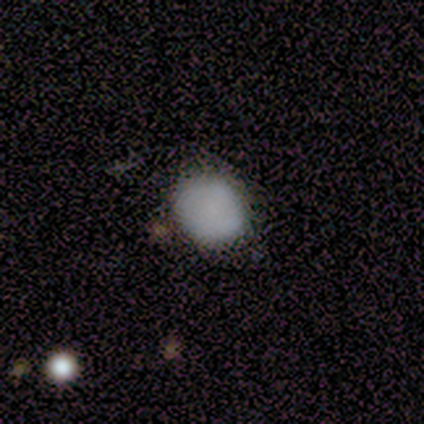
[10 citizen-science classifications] Smooth or featured?
  - smooth: 80% *
  - featured or disk: 20%
  - star or artifact: 0%
How rounded?
  - round: 100% *
  - in between: 0%
  - cigar-shaped: 0%
Merging?
  - none: 70% *
  - minor disturbance: 20%
  - major disturbance: 10%
  - merger: 0%